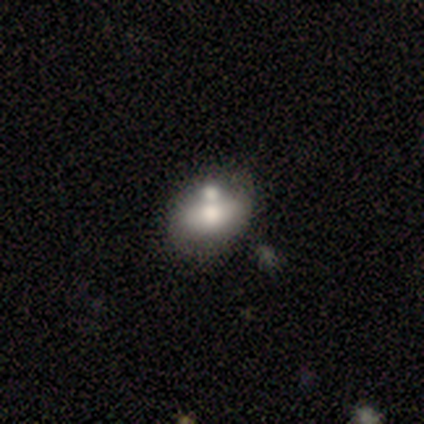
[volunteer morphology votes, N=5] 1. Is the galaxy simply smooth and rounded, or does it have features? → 80% smooth, 20% featured or disk, 0% star or artifact.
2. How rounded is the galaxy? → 100% in between, 0% round, 0% cigar-shaped.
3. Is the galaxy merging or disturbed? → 60% none, 20% minor disturbance, 20% merger, 0% major disturbance.